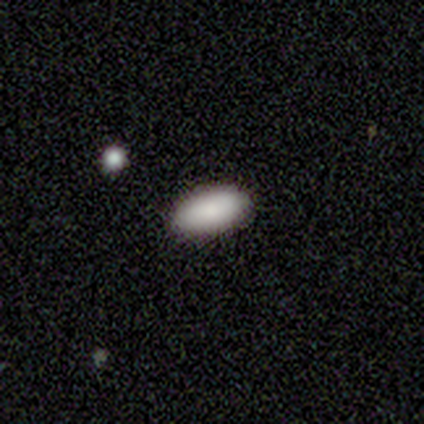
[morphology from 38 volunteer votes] smooth 100%, featured or disk 0%, star or artifact 0%. Down the decision tree: how rounded — in between (89%); merging — none (89%).